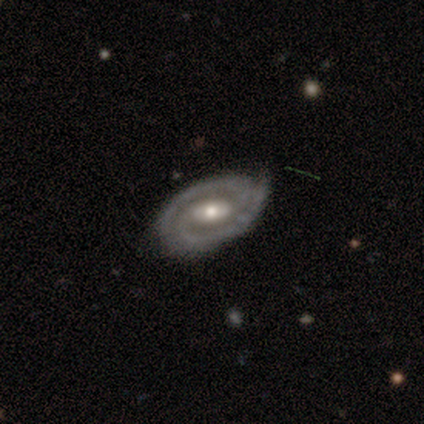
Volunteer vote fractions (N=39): A featured or disk galaxy (92%) with a weak bar (56%), 2 (91%) tight (72%) spiral arms (94%) and a moderate central bulge (56%).

Vote fractions:
- Smooth or featured? featured or disk: 92% / smooth: 8% / star or artifact: 0%
- Edge-on disk? no: 94% / yes: 6%
- Bar? weak: 56% / strong: 26% / no: 18%
- Spiral arms? yes: 94% / no: 6%
- Spiral winding? tight: 72% / medium: 22% / loose: 6%
- Spiral arm count? 2: 91% / 1: 6% / can't tell: 3% / 3: 0% / 4: 0% / more than 4: 0%
- Bulge size? moderate: 56% / small: 26% / large: 15% / dominant: 3% / none: 0%
- Merging? none: 82% / minor disturbance: 15% / major disturbance: 3% / merger: 0%